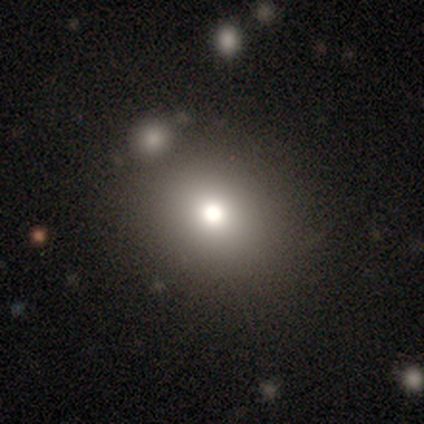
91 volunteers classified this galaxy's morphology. Overall: smooth (67%). How rounded: round (77%). Merging: none (84%).